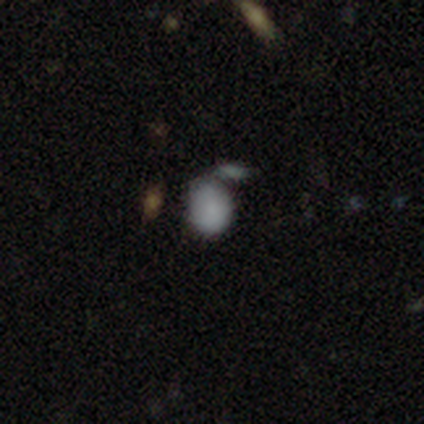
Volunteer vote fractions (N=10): Morphology: type=smooth (90%); roundness=in between (67%); merging=none (67%).